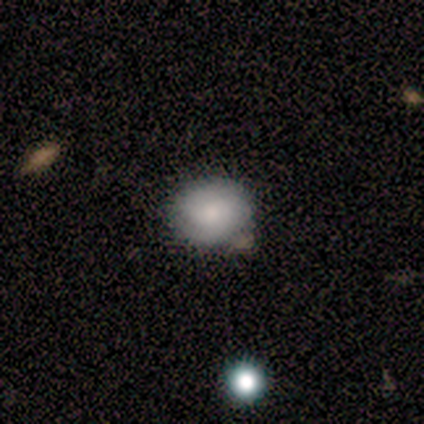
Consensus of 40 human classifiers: This appears to be a smooth galaxy with no disk features (65%) that is round (62%). Merging: none (55%).